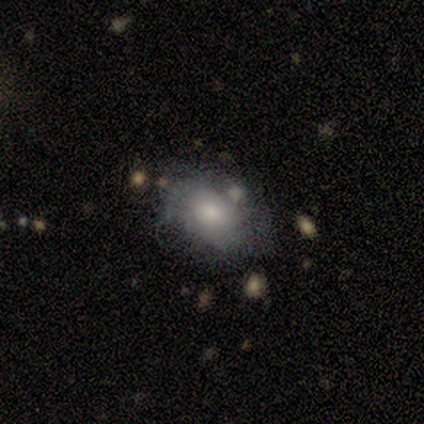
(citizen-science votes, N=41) A featured or disk galaxy (51%) with no bar (86%), tight (67%) spiral arms (57%) and a moderate central bulge (67%).

Vote fractions:
- Smooth or featured? featured or disk: 51% / smooth: 46% / star or artifact: 2%
- Edge-on disk? no: 100% / yes: 0%
- Bar? no: 86% / weak: 14% / strong: 0%
- Spiral arms? yes: 57% / no: 43%
- Spiral winding? tight: 67% / medium: 33% / loose: 0%
- Spiral arm count? can't tell: 42% / 2: 25% / 3: 17% / 1: 8% / more than 4: 8% / 4: 0%
- Bulge size? moderate: 67% / large: 19% / small: 10% / dominant: 5% / none: 0%
- Merging? none: 40% (tied) / minor disturbance: 40% (tied) / major disturbance: 15% / merger: 5%